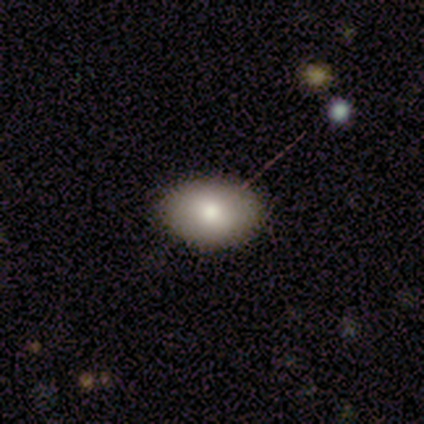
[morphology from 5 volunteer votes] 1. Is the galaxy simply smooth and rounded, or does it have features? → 100% smooth, 0% featured or disk, 0% star or artifact.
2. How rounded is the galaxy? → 100% in between, 0% round, 0% cigar-shaped.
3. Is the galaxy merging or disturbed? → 80% none, 20% minor disturbance, 0% major disturbance, 0% merger.